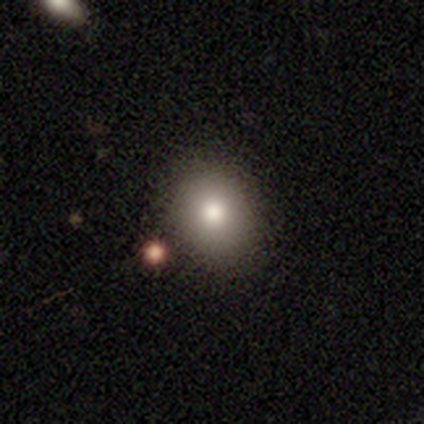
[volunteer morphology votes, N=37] A smooth galaxy with no disk features (84%) that is round (74%). Merging: none (80%).